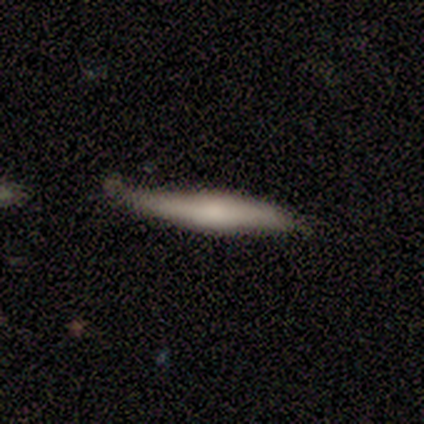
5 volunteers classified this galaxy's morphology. A smooth galaxy with no disk features (60%) that is cigar-shaped (100%). Merging: none (80%).